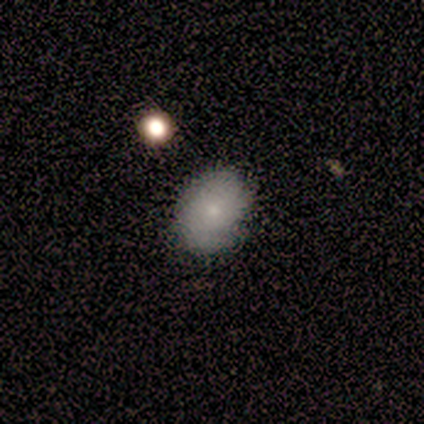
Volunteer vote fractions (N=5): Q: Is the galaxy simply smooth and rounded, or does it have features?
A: smooth — 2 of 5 (40%, tied with star or artifact).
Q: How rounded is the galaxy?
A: round — 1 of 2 (50%, tied with in between).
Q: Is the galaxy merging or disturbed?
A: none — 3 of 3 (100%).